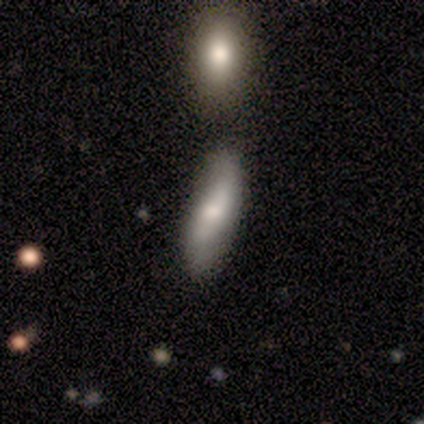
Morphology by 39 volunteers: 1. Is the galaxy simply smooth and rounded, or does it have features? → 46% smooth, 41% featured or disk, 13% star or artifact.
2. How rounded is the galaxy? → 56% cigar-shaped, 39% in between, 6% round.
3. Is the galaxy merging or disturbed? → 79% none, 12% minor disturbance, 6% merger, 3% major disturbance.